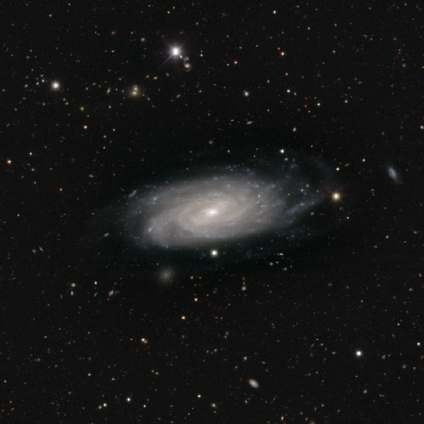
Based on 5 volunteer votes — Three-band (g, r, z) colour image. It shows a featured or disk galaxy (100%) with no bar (75%), more than 4 (50%) tight (75%) spiral arms (100%) and a small central bulge (75%). Merging: none (60%).